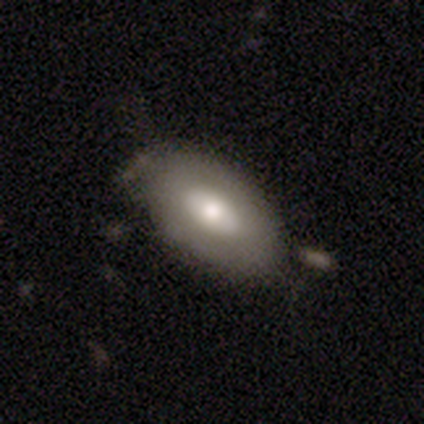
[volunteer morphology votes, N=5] A featured or disk galaxy (80%) with a weak bar (75%), no spiral arms (100%) and a moderate central bulge (50%, tied with small).

Vote fractions:
- Smooth or featured? featured or disk: 80% / smooth: 20% / star or artifact: 0%
- Edge-on disk? no: 100% / yes: 0%
- Bar? weak: 75% / no: 25% / strong: 0%
- Spiral arms? no: 100% / yes: 0%
- Bulge size? moderate: 50% (tied) / small: 50% (tied) / dominant: 0% / large: 0% / none: 0%
- Merging? minor disturbance: 60% / none: 40% / major disturbance: 0% / merger: 0%